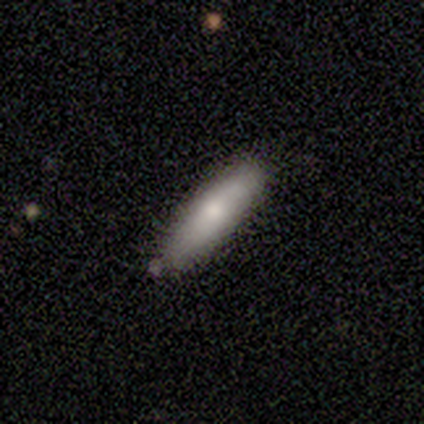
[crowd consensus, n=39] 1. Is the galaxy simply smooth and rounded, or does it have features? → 82% smooth, 18% featured or disk, 0% star or artifact.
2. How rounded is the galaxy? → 81% cigar-shaped, 16% in between, 3% round.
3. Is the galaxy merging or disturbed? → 82% none, 10% minor disturbance, 5% major disturbance, 3% merger.